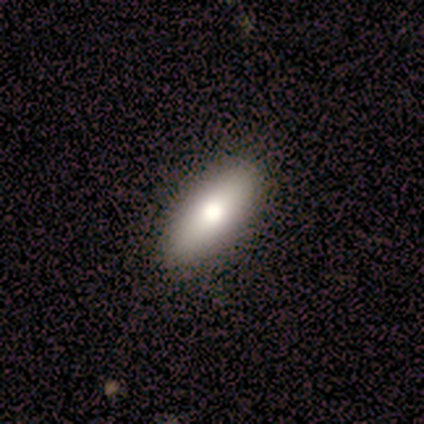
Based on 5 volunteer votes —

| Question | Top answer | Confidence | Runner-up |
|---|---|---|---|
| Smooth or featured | smooth | 80% | star or artifact (20%) |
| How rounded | in between | 75% | cigar-shaped (25%) |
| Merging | none | 100% | — |